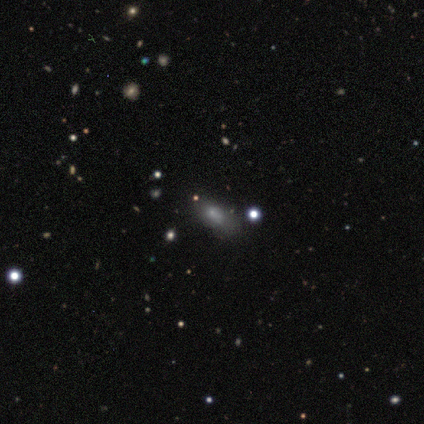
Smooth or featured?
  - smooth: 60% *
  - featured or disk: 20%
  - star or artifact: 20%
How rounded?
  - in between: 100% *
  - round: 0%
  - cigar-shaped: 0%
Merging?
  - none: 50% *
  - minor disturbance: 25%
  - major disturbance: 25%
  - merger: 0%